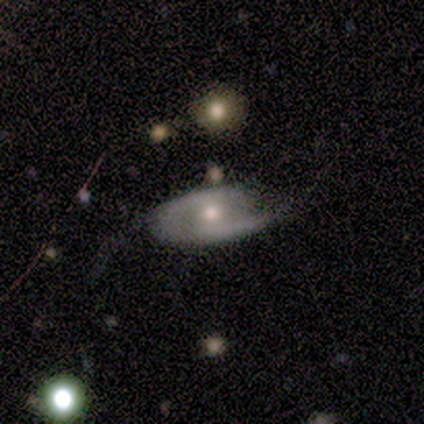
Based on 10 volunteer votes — Morphology: type=featured or disk (80%); edge-on=no (88%); bar=no (57%); spiral arms=yes (100%); winding=medium (57%); arm count=2 (86%); bulge=moderate (71%); merging=none (40%, tied with minor disturbance).